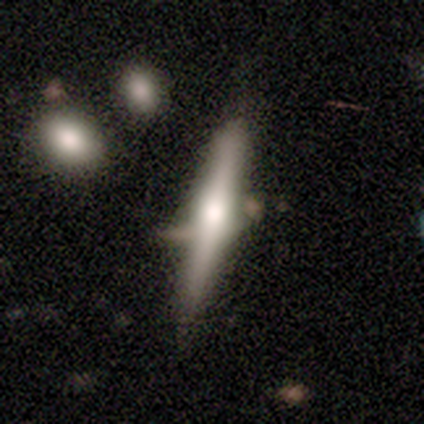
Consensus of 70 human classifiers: Smooth or featured? 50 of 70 (71%) said featured or disk. Edge-on disk? 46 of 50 (92%) said yes. Edge-on bulge? 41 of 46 (89%) said rounded. Merging? 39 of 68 (57%) said none.